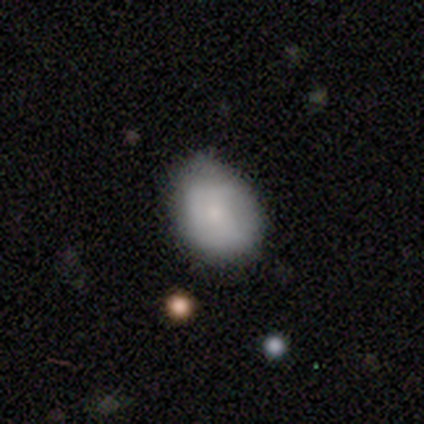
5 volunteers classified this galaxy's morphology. This is clearly a smooth galaxy (80%). How rounded: possibly round (50%, tied with in between). Merging: clearly none (80%).